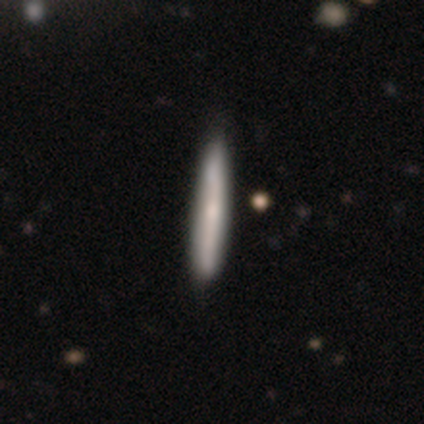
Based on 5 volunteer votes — Volunteers were most divided on "smooth or featured": featured or disk: 60%, smooth: 40%, star or artifact: 0%. More confident: edge-on disk — yes (100%); merging — none (100%); edge-on bulge — none (67%).